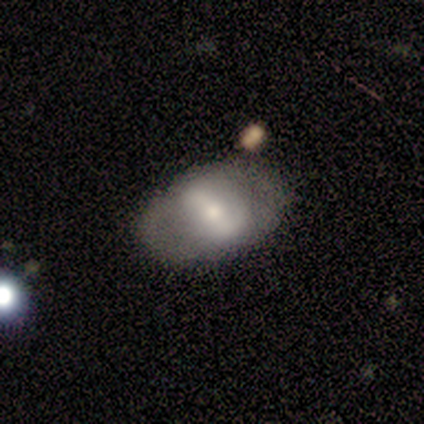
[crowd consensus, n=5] smooth_or_featured: featured or disk (p=0.80) [alt: smooth p=0.20]
disk_edge_on: no (p=0.75) [alt: yes p=0.25]
bar: strong (p=1.00)
has_spiral_arms: no (p=1.00)
bulge_size: large (p=0.33) [tied with: moderate p=0.33, small p=0.33]
merging: none (p=0.80) [alt: major disturbance p=0.20]